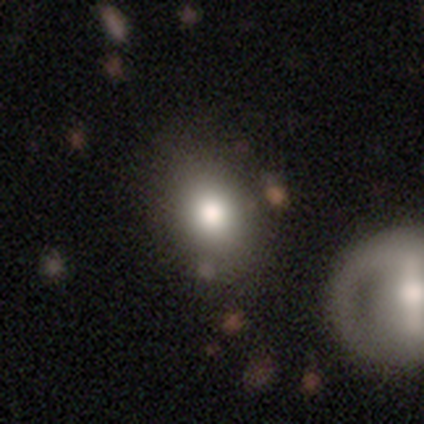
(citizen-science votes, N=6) A smooth galaxy with no disk features (67%) that is in between round and cigar-shaped (75%).

Vote fractions:
- Smooth or featured? smooth: 67% / featured or disk: 17% / star or artifact: 17%
- How rounded? in between: 75% / round: 25% / cigar-shaped: 0%
- Merging? none: 60% / minor disturbance: 20% / merger: 20% / major disturbance: 0%